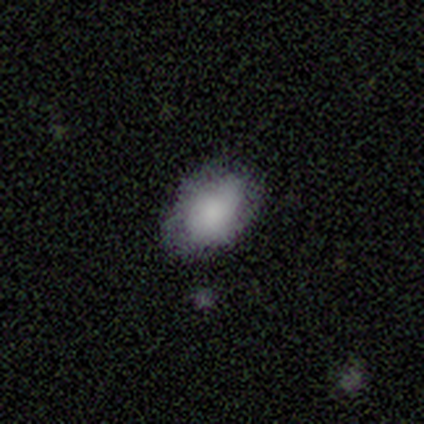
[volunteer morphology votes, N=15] A smooth galaxy with no disk features (93%) that is in between round and cigar-shaped (93%).

Vote fractions:
- Smooth or featured? smooth: 93% / featured or disk: 7% / star or artifact: 0%
- How rounded? in between: 93% / round: 7% / cigar-shaped: 0%
- Merging? none: 60% / minor disturbance: 40% / major disturbance: 0% / merger: 0%